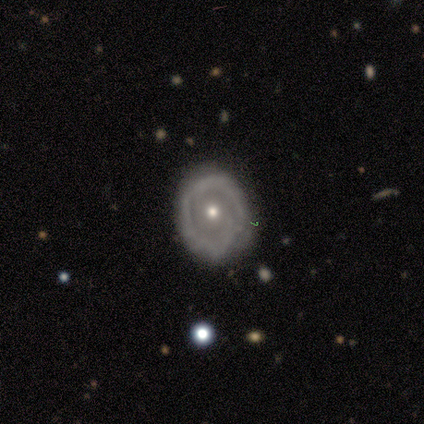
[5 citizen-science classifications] smooth-or-featured: featured or disk: 60% | smooth: 40% | star or artifact: 0%
  disk-edge-on: no: 100% | yes: 0%
    bar: no: 67% | weak: 33% | strong: 0%
    has-spiral-arms: yes: 67% | no: 33%
      spiral-winding: tight: 50% (tied) | loose: 50% (tied) | medium: 0%
      spiral-arm-count: 1: 50% (tied) | 2: 50% (tied) | 3: 0% | 4: 0% | more than 4: 0% | can't tell: 0%
    bulge-size: moderate: 67% | small: 33% | dominant: 0% | large: 0% | none: 0%
  merging: none: 60% | minor disturbance: 40% | major disturbance: 0% | merger: 0%